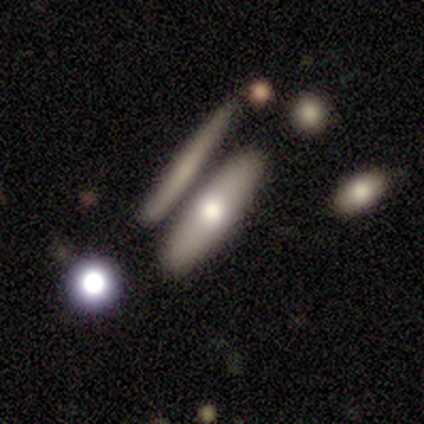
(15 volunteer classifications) featured or disk 47%, smooth 40%, star or artifact 13%. Down the decision tree: edge-on disk — yes (71%); edge-on bulge — rounded (100%); merging — none (62%).